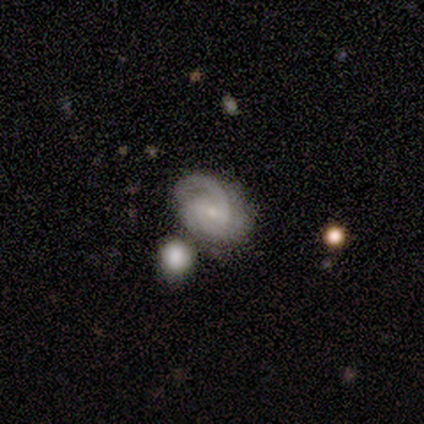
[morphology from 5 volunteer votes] Overall: featured or disk (100%). Edge-on disk: no (80%). Bar: weak (50%; strong 25%). Spiral arms: yes (75%). Spiral arm count: 2 (67%; can't tell 33%). Spiral winding: tight (67%; loose 33%). Bulge size: small (50%; moderate 25%). Merging: merger (60%; none 20%).